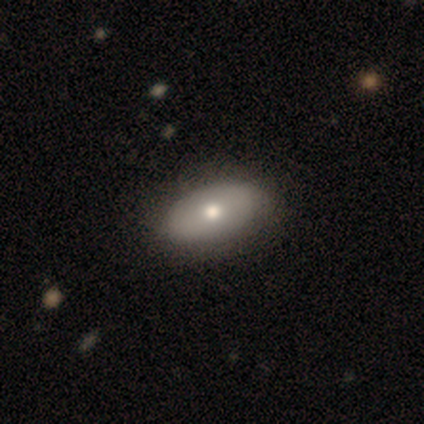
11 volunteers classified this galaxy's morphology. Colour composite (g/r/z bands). It shows a smooth galaxy with no disk features (73%) that is in between round and cigar-shaped (100%). Merging: none (80%).